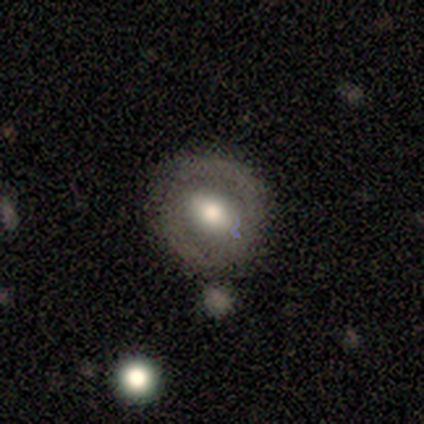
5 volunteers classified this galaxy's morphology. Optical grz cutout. It shows a featured or disk galaxy (60%) with a weak bar (67%), 2 (100%) tight (50%, tied with medium) spiral arms (67%) and a moderate central bulge (67%). Merging: none (100%).